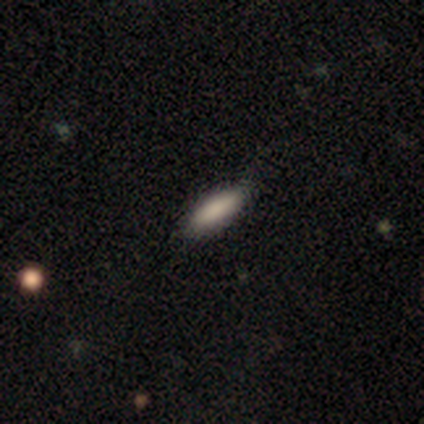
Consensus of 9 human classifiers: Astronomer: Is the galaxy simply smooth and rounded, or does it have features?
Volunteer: smooth — 89%.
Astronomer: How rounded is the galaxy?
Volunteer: in between — 50%, tied with cigar-shaped at 50%.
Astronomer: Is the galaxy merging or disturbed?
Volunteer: none — 89%.